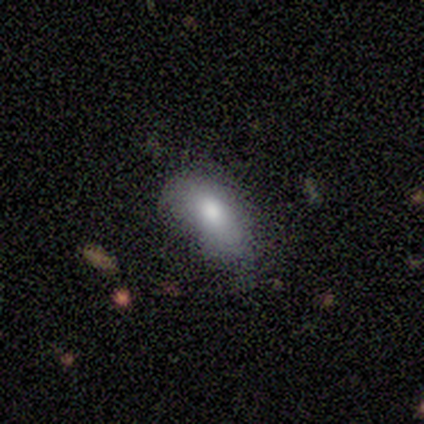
A featured or disk galaxy (60%) with no bar (67%), no spiral arms (100%) and a moderate central bulge (67%).

Vote fractions:
- Smooth or featured? featured or disk: 60% / smooth: 40% / star or artifact: 0%
- Edge-on disk? no: 100% / yes: 0%
- Bar? no: 67% / weak: 33% / strong: 0%
- Spiral arms? no: 100% / yes: 0%
- Bulge size? moderate: 67% / large: 33% / dominant: 0% / small: 0% / none: 0%
- Merging? none: 60% / minor disturbance: 40% / major disturbance: 0% / merger: 0%